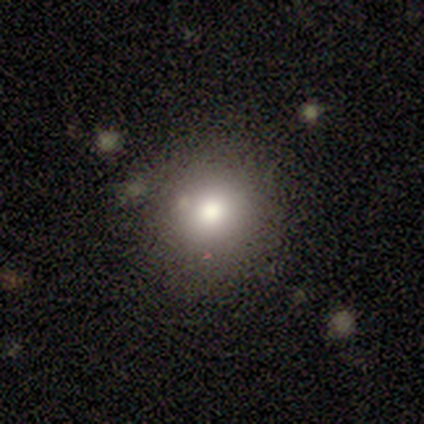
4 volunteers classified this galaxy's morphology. type=smooth (100%); roundness=round (100%); merging=none (100%).